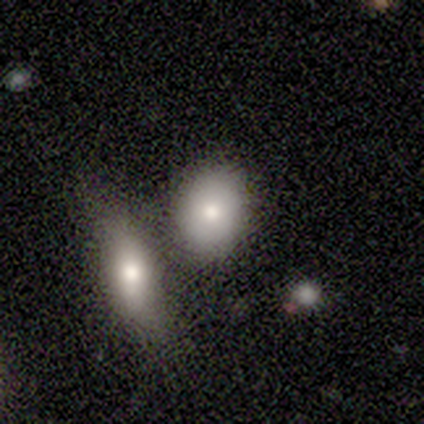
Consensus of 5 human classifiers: A smooth galaxy with no disk features (100%) that is in between round and cigar-shaped (60%). Merging: none (80%).